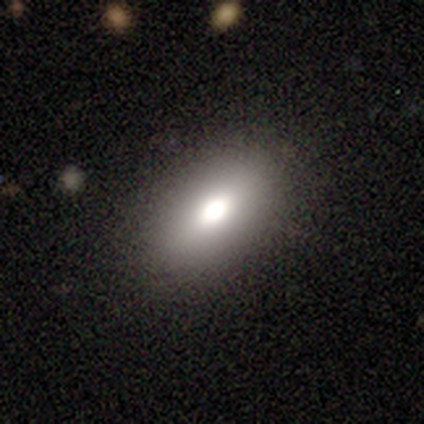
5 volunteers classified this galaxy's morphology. A smooth galaxy with no disk features (100%) that is in between round and cigar-shaped (100%). Merging: none (60%).